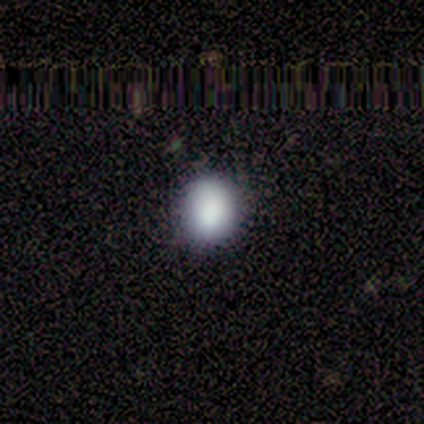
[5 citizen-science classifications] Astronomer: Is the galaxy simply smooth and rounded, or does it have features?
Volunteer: smooth — 100%.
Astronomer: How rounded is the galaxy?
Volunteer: round — 80%.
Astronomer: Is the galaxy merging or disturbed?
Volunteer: none — 80%.